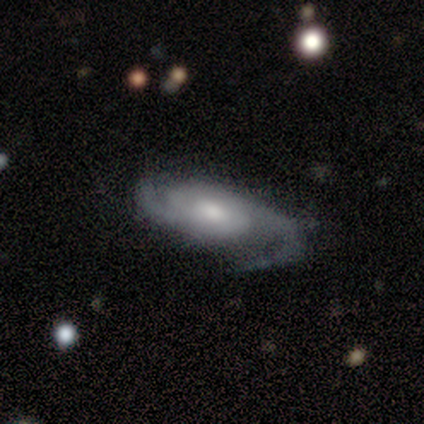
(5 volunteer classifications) Smooth or featured: featured or disk — 100%
Edge-on disk: no — 80% (yes — 20%)
Bar: weak — 50% (tied with no — 50%)
Spiral arms: yes — 100%
Spiral winding: medium — 100%
Spiral arm count: 2 — 100%
Bulge size: moderate — 75% (small — 25%)
Merging: none — 60% (minor disturbance — 40%)